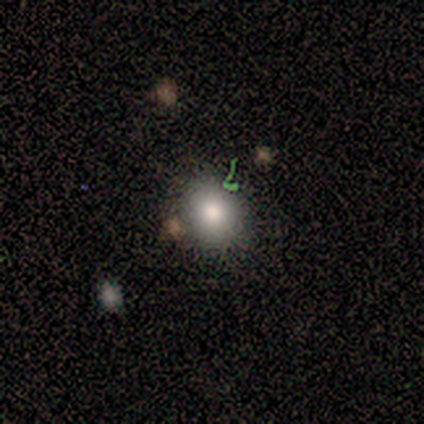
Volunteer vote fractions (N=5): A smooth galaxy with no disk features (60%) that is round (67%). Merging: none (67%).